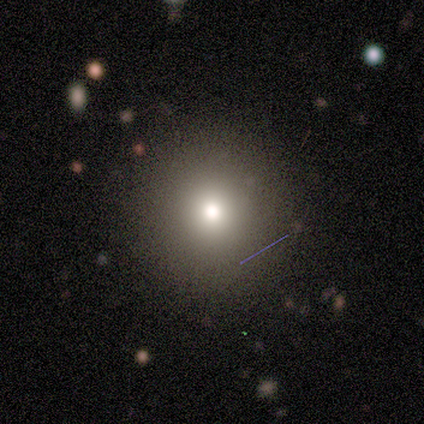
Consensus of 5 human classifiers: Smooth or featured: smooth — 80% (star or artifact — 20%)
How rounded: round — 100%
Merging: none — 100%